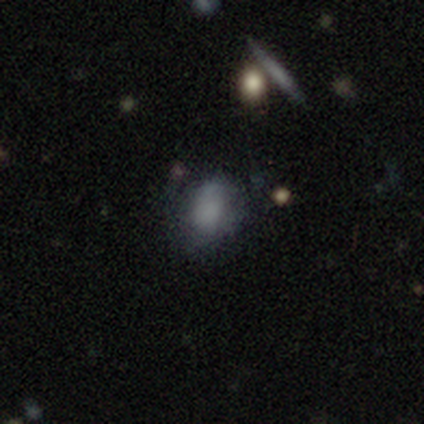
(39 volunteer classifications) This is likely a smooth galaxy (67%). How rounded: likely in between (69%). Merging: possibly none (53%).